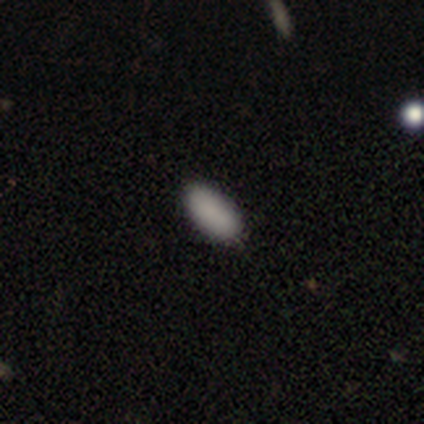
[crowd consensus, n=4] smooth_or_featured: smooth (p=1.00)
how_rounded: in between (p=1.00)
merging: none (p=0.75) [alt: minor disturbance p=0.25]